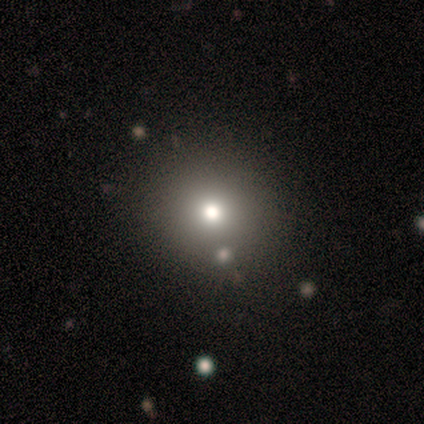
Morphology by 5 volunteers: Q: Smooth or featured?
A: smooth (40%); tied with: star or artifact (40%)
Q: How rounded?
A: round (50%); tied with: in between (50%)
Q: Merging?
A: none (33%); tied with: minor disturbance (33%); major disturbance (33%)